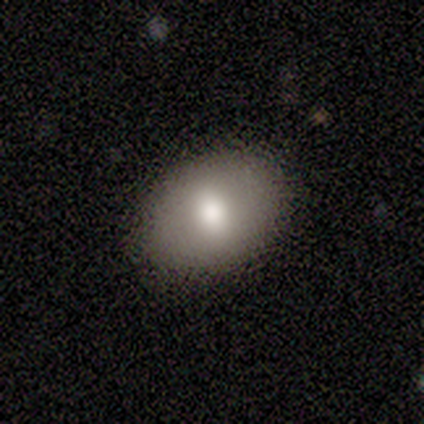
Morphology: type=smooth (50%); roundness=in between (100%); merging=none (100%).